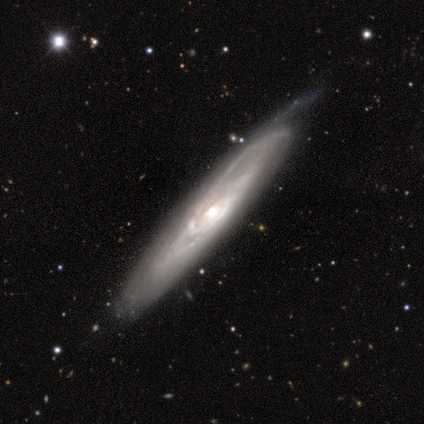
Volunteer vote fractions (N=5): A featured or disk galaxy (100%) with no bar (67%), tight (67%) spiral arms (100%) and a large central bulge (33%, tied with moderate and small).

Vote fractions:
- Smooth or featured? featured or disk: 100% / smooth: 0% / star or artifact: 0%
- Edge-on disk? no: 60% / yes: 40%
- Bar? no: 67% / weak: 33% / strong: 0%
- Spiral arms? yes: 100% / no: 0%
- Spiral winding? tight: 67% / medium: 33% / loose: 0%
- Spiral arm count? can't tell: 100% / 1: 0% / 2: 0% / 3: 0% / 4: 0% / more than 4: 0%
- Bulge size? large: 33% (tied) / moderate: 33% (tied) / small: 33% (tied) / dominant: 0% / none: 0%
- Merging? none: 80% / minor disturbance: 20% / major disturbance: 0% / merger: 0%